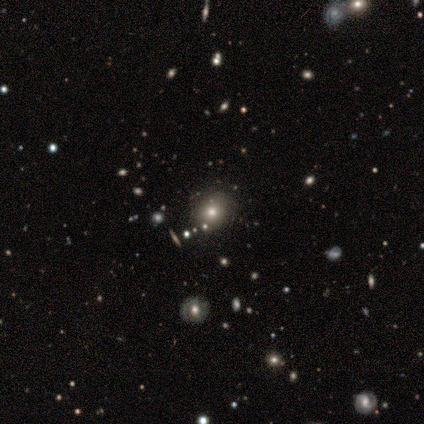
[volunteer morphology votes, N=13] smooth-or-featured: smooth: 69% | featured or disk: 15% | star or artifact: 15%
  how-rounded: round: 100% | in between: 0% | cigar-shaped: 0%
  merging: none: 82% | major disturbance: 9% | merger: 9% | minor disturbance: 0%